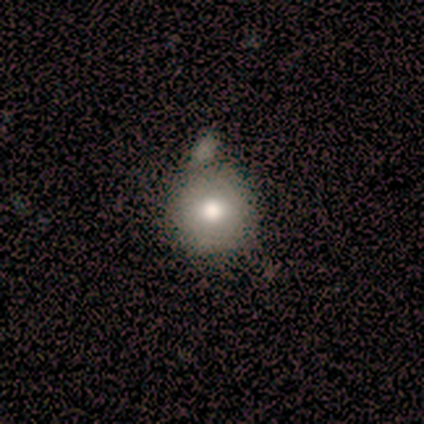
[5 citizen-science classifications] Volunteers were most divided on "merging" (2-way tie): none: 40%, minor disturbance: 40%, merger: 20%, major disturbance: 0%. More confident: how rounded — round (100%); smooth or featured — smooth (60%).